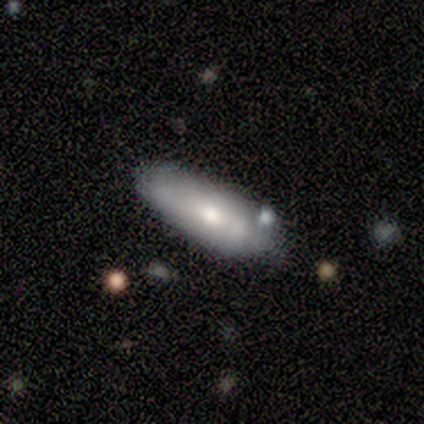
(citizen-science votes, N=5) A smooth galaxy with no disk features (60%) that is in between round and cigar-shaped (67%). Merging: none (100%).